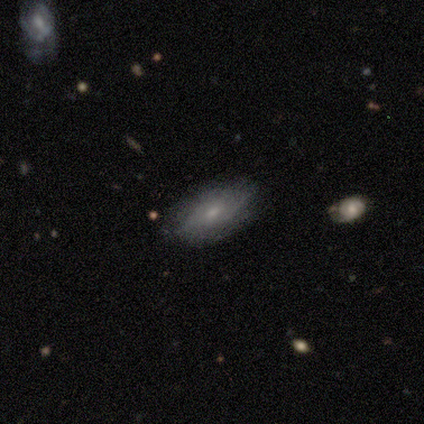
This is clearly a smooth galaxy (80%). How rounded: clearly in between (100%). Merging: clearly none (100%).